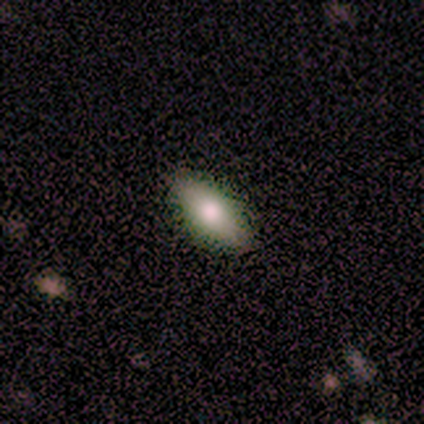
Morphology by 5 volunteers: smooth-or-featured: smooth: 80% | featured or disk: 20% | star or artifact: 0%
  how-rounded: in between: 100% | round: 0% | cigar-shaped: 0%
  merging: none: 80% | minor disturbance: 20% | major disturbance: 0% | merger: 0%